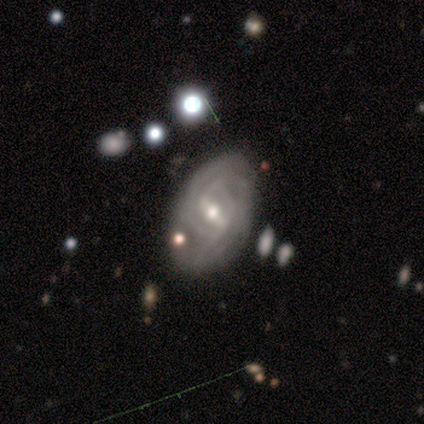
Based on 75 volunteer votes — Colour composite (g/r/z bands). It shows a featured or disk galaxy (91%) with a strong bar (50%), tight (54%) spiral arms (90%) and a moderate central bulge (49%). Merging: none (64%).